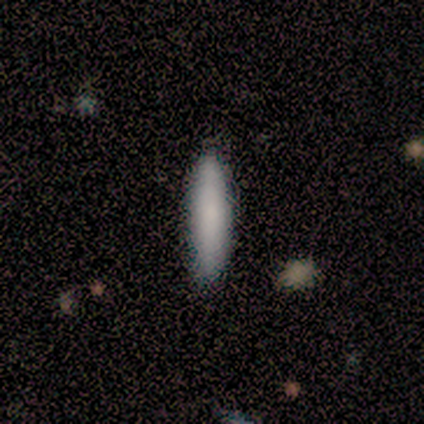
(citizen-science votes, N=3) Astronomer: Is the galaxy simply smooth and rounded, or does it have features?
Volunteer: smooth — 67%.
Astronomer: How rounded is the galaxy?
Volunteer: cigar-shaped — 100%.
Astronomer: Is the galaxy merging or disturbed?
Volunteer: none — 100%.